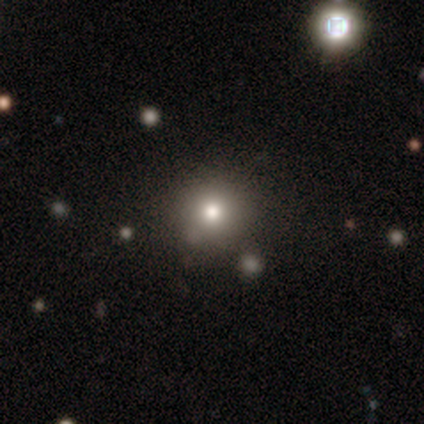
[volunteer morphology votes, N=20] This appears to be a smooth galaxy with no disk features (90%) that is round (78%). Merging: none (100%).